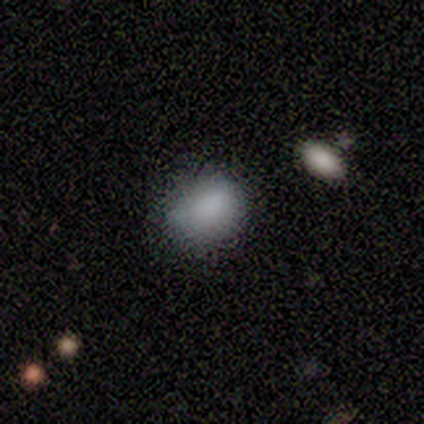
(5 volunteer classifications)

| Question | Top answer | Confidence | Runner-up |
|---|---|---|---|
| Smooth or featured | smooth | 80% | star or artifact (20%) |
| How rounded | round | 75% | in between (25%) |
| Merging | none | 75% | major disturbance (25%) |